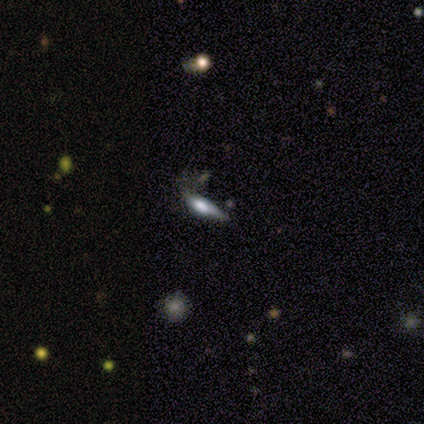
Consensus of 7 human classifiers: A featured or disk galaxy (71%) viewed edge-on (80%) with a boxy central bulge (50%, tied with rounded).

Vote fractions:
- Smooth or featured? featured or disk: 71% / smooth: 14% / star or artifact: 14%
- Edge-on disk? yes: 80% / no: 20%
- Edge-on bulge? boxy: 50% (tied) / rounded: 50% (tied) / none: 0%
- Merging? major disturbance: 67% / minor disturbance: 33% / none: 0% / merger: 0%